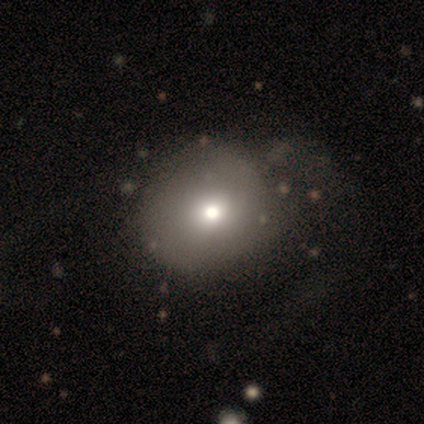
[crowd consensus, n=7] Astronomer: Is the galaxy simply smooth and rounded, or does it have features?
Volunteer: featured or disk — 57%.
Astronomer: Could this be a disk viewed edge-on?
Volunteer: no — 100%.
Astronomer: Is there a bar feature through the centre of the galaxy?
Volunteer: no — 100%.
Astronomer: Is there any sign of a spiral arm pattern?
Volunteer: no — 100%.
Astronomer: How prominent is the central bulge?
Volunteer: small — 75%.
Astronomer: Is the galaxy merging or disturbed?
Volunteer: none — 100%.